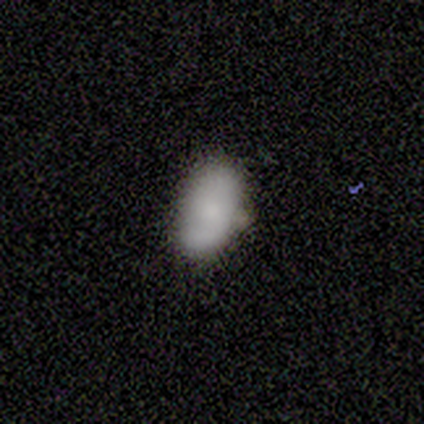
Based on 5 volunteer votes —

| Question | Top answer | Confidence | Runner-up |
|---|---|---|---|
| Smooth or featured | smooth | 60% | featured or disk (40%) |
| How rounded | in between | 100% | — |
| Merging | none | 60% | minor disturbance (40%) |